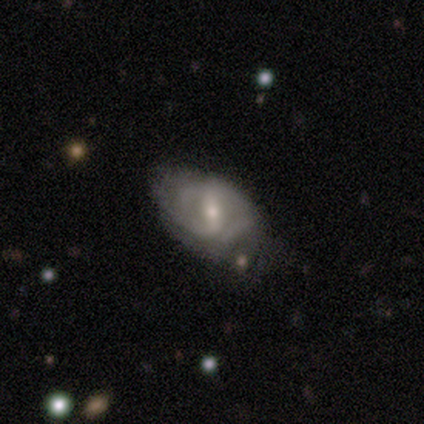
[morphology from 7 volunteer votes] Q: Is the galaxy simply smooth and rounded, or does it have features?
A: featured or disk — 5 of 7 (71%).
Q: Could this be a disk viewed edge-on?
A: no — 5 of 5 (100%).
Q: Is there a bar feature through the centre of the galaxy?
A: strong — 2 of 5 (40%, tied with weak).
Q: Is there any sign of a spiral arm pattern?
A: yes — 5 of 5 (100%).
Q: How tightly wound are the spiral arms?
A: medium — 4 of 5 (80%).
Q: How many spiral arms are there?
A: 2 — 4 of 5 (80%).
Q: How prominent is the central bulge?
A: small — 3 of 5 (60%).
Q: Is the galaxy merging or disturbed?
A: none — 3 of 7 (43%).